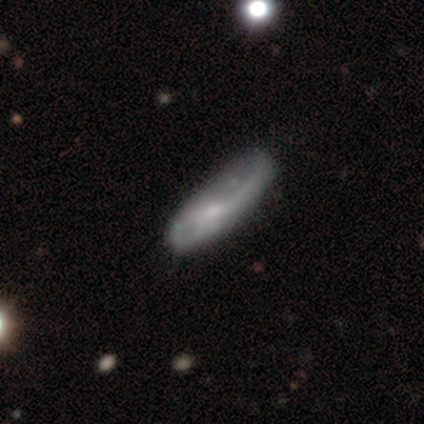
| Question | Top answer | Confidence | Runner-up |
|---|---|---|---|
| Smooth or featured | featured or disk | 55% | smooth (38%) |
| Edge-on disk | no | 68% | yes (32%) |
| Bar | no | 67% | weak (27%) |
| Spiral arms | yes | 67% | no (33%) |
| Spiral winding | loose | 70% | medium (20%) |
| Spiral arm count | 2 | 40% | 1 (30%) |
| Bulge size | small | 60% | moderate (20%) |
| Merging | none | 22% | minor disturbance (19%) |